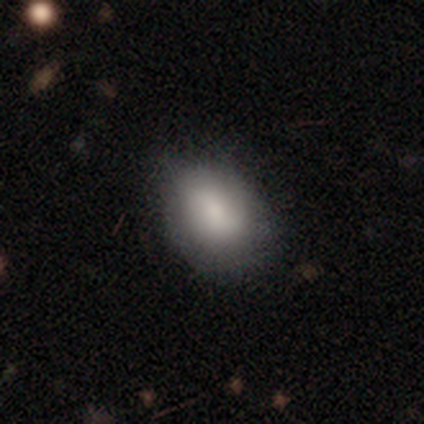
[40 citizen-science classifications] A smooth galaxy with no disk features (75%) that is in between round and cigar-shaped (83%).

Vote fractions:
- Smooth or featured? smooth: 75% / featured or disk: 25% / star or artifact: 0%
- How rounded? in between: 83% / round: 17% / cigar-shaped: 0%
- Merging? none: 68% / minor disturbance: 10% / major disturbance: 2% / merger: 0%